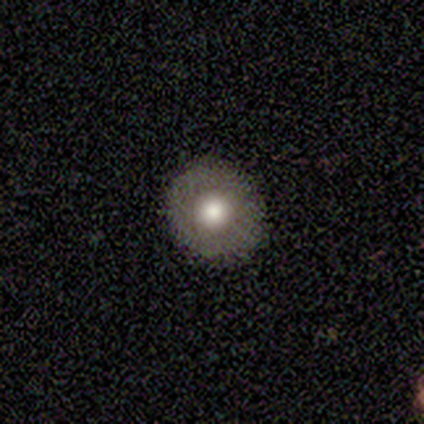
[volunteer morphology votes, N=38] type=smooth (74%); roundness=round (93%); merging=none (94%).